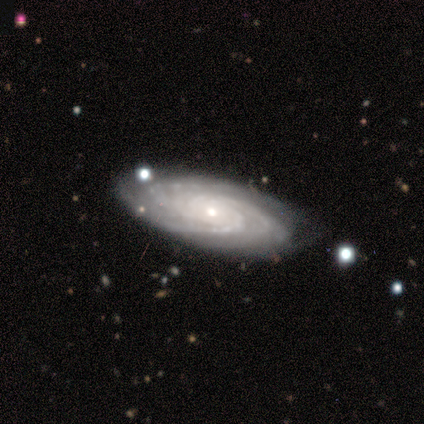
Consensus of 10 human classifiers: Smooth or featured?
  - featured or disk: 100% *
  - smooth: 0%
  - star or artifact: 0%
Edge-on disk?
  - no: 100% *
  - yes: 0%
Bar?
  - no: 90% *
  - weak: 10%
  - strong: 0%
Spiral arms?
  - yes: 100% *
  - no: 0%
Spiral winding?
  - tight: 90% *
  - medium: 10%
  - loose: 0%
Spiral arm count?
  - 3: 70% *
  - can't tell: 20%
  - 2: 10%
  - 1: 0%
  - 4: 0%
  - more than 4: 0%
Bulge size?
  - small: 70% *
  - moderate: 30%
  - dominant: 0%
  - large: 0%
  - none: 0%
Merging?
  - none: 80% *
  - minor disturbance: 20%
  - major disturbance: 0%
  - merger: 0%